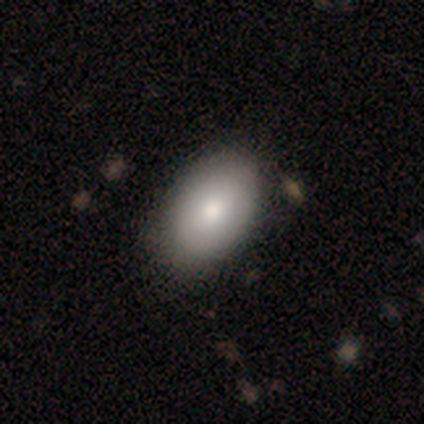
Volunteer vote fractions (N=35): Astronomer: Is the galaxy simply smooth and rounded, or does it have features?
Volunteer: smooth — 91%.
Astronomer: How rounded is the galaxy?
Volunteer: in between — 88%.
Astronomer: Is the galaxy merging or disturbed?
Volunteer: none — 74%.